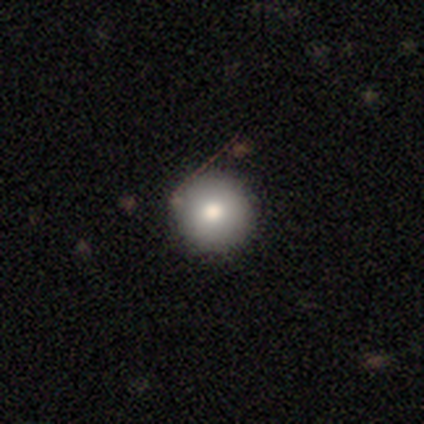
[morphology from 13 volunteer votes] Volunteers were most divided on "smooth or featured": smooth: 62%, featured or disk: 31%, star or artifact: 8%. More confident: how rounded — round (100%); merging — none (83%).